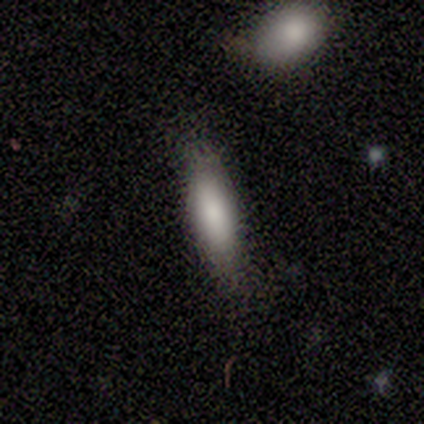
Overall: smooth (100%). How rounded: cigar-shaped (75%). Merging: none (100%).